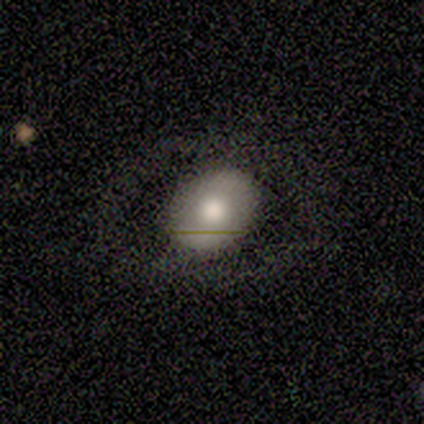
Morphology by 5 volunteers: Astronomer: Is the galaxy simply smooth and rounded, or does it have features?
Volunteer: featured or disk — 60% (runner-up: smooth, 40%).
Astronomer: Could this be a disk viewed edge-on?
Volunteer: no — 100%.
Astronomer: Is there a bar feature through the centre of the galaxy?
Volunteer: no — 67%.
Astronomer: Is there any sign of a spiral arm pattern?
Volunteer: no — 100%.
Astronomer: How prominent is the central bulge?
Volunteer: moderate — 67%.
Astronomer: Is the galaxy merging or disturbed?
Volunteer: none — 80%.